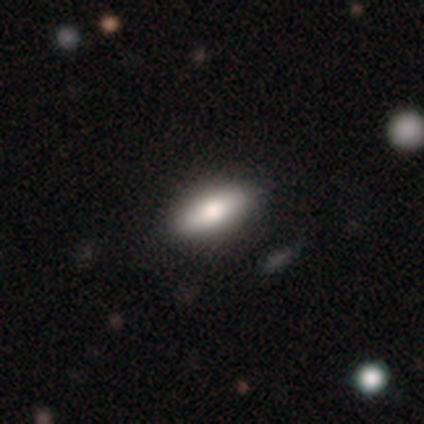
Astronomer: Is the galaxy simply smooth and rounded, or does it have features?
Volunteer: smooth — 50%, tied with featured or disk at 50%.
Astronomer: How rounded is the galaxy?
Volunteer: in between — 50%, tied with cigar-shaped at 50%.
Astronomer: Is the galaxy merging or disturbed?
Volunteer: none — 100%.